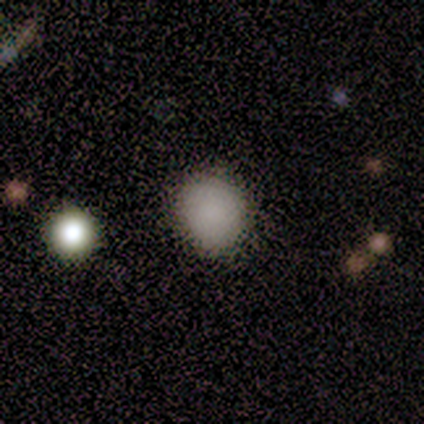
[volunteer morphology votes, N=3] Q: Smooth or featured?
A: smooth (100%)
Q: How rounded?
A: round (100%)
Q: Merging?
A: none (100%)